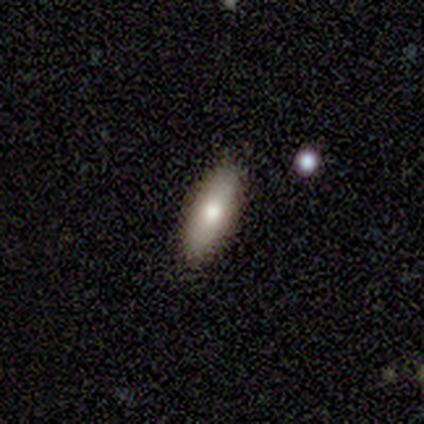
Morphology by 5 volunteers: smooth_or_featured: smooth (p=1.00)
how_rounded: in between (p=0.60) [alt: cigar-shaped p=0.40]
merging: none (p=0.80) [alt: minor disturbance p=0.20]